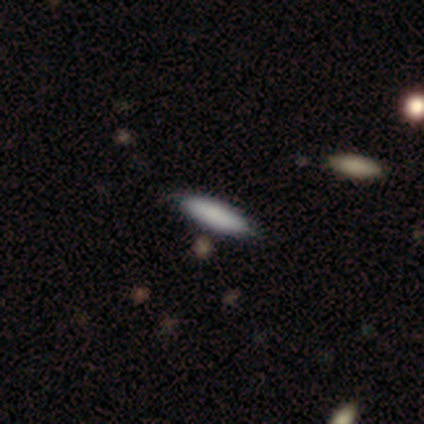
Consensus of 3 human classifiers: A smooth galaxy with no disk features (100%) that is cigar-shaped (100%).

Vote fractions:
- Smooth or featured? smooth: 100% / featured or disk: 0% / star or artifact: 0%
- How rounded? cigar-shaped: 100% / round: 0% / in between: 0%
- Merging? none: 100% / minor disturbance: 0% / major disturbance: 0% / merger: 0%